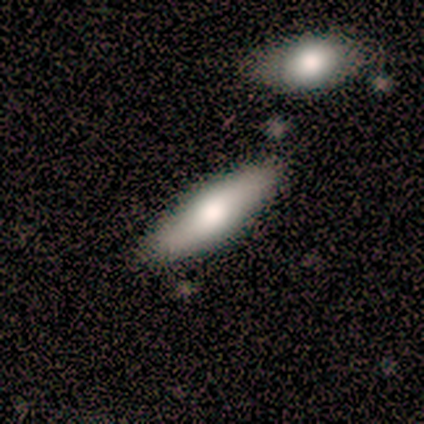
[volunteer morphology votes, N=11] A smooth galaxy with no disk features (82%) that is in between round and cigar-shaped (56%). Merging: none (90%).